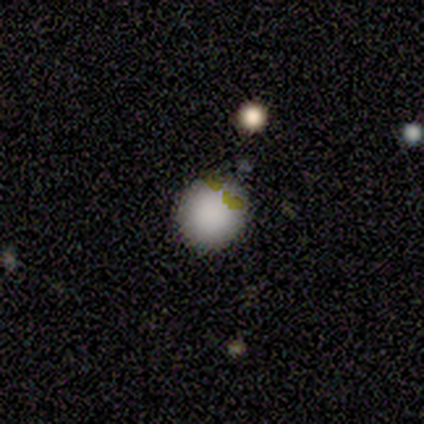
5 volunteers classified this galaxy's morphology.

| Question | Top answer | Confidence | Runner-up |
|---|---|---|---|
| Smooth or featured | smooth | 80% | featured or disk (20%) |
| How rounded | round | 100% | — |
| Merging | none | 80% | merger (20%) |